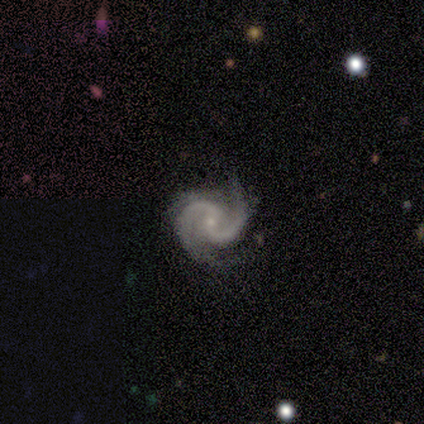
Smooth or featured? featured or disk (93%)
Edge-on disk? no (100%)
Bar? weak (64%)
Spiral arms? yes (100%)
Spiral winding? medium (57%)
Spiral arm count? 2 (93%)
Bulge size? small (86%)
Merging? none (86%)